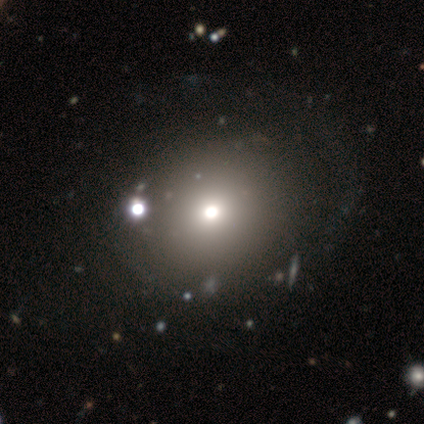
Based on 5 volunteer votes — Smooth or featured? 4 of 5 (80%) said smooth. How rounded? 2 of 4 (50%, tied with in between) said round. Merging? 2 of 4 (50%, tied with major disturbance) said none.